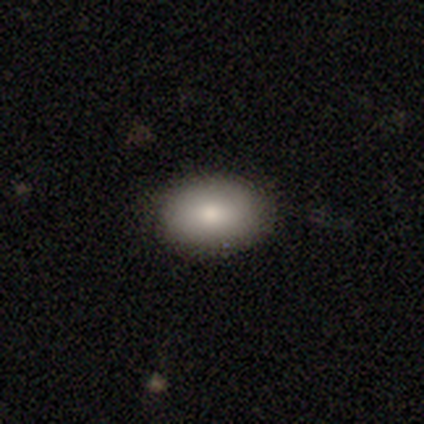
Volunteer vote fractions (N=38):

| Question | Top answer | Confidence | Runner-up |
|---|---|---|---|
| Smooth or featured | smooth | 89% | star or artifact (8%) |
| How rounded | in between | 91% | round (9%) |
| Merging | none | 89% | minor disturbance (11%) |